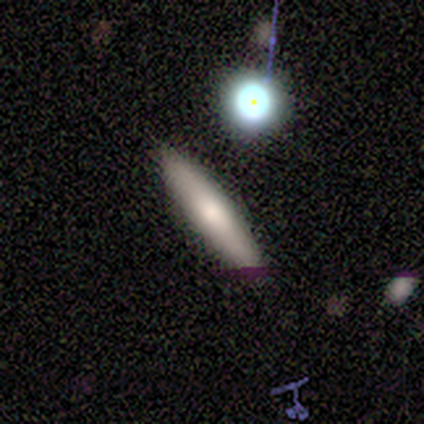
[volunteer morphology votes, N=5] Smooth or featured: smooth — 80% (featured or disk — 20%)
How rounded: cigar-shaped — 75% (round — 25%)
Merging: none — 60% (minor disturbance — 20%)